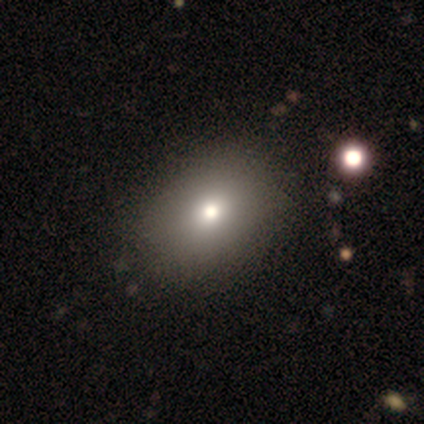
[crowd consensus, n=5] Volunteers were most divided on "how rounded": in between: 75%, round: 25%, cigar-shaped: 0%. More confident: merging — none (100%); smooth or featured — smooth (80%).